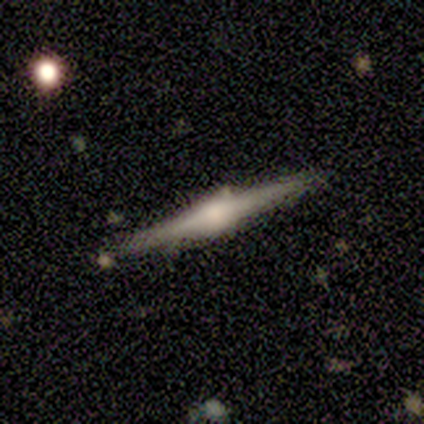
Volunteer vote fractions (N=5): Smooth or featured?
  - featured or disk: 80% *
  - star or artifact: 20%
  - smooth: 0%
Edge-on disk?
  - yes: 100% *
  - no: 0%
Edge-on bulge?
  - rounded: 75% *
  - none: 25%
  - boxy: 0%
Merging?
  - none: 100% *
  - minor disturbance: 0%
  - major disturbance: 0%
  - merger: 0%